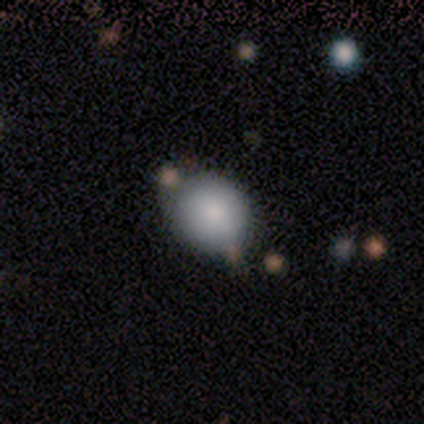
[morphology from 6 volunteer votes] Overall: smooth (67%; star or artifact 33%). How rounded: round (75%). Merging: none (75%).